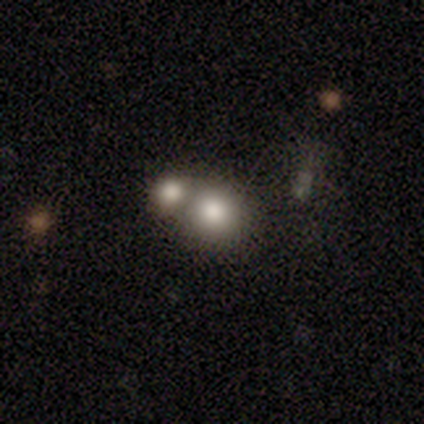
smooth 71%, featured or disk 17%, star or artifact 11%. Down the decision tree: how rounded — round (72%); merging — merger (61%).